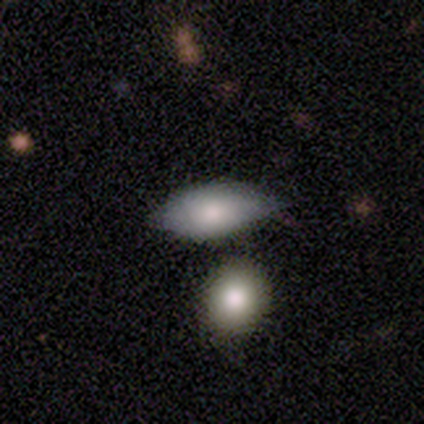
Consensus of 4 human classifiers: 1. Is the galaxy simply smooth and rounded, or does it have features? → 75% smooth, 25% featured or disk, 0% star or artifact.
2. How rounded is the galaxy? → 100% in between, 0% round, 0% cigar-shaped.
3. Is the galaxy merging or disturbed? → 50% none (tied), 50% minor disturbance (tied), 0% major disturbance, 0% merger.